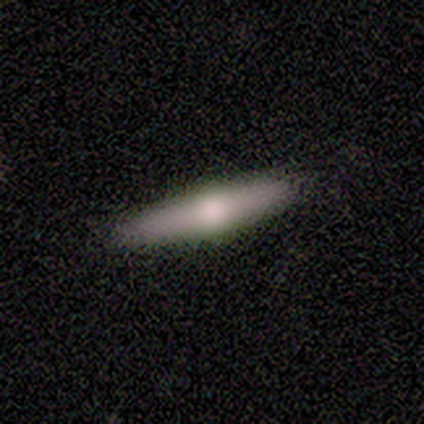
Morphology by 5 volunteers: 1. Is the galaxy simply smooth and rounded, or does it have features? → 80% smooth, 20% featured or disk, 0% star or artifact.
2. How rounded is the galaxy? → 100% cigar-shaped, 0% round, 0% in between.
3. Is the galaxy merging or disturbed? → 80% none, 20% minor disturbance, 0% major disturbance, 0% merger.